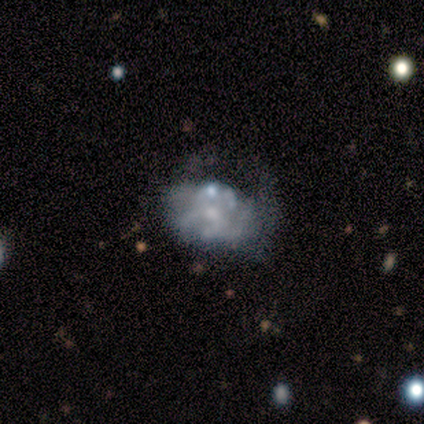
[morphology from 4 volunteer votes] Smooth or featured?
  - smooth: 50% *
  - featured or disk: 25%
  - star or artifact: 25%
How rounded?
  - round: 100% *
  - in between: 0%
  - cigar-shaped: 0%
Merging?
  - minor disturbance: 67% *
  - merger: 33%
  - none: 0%
  - major disturbance: 0%